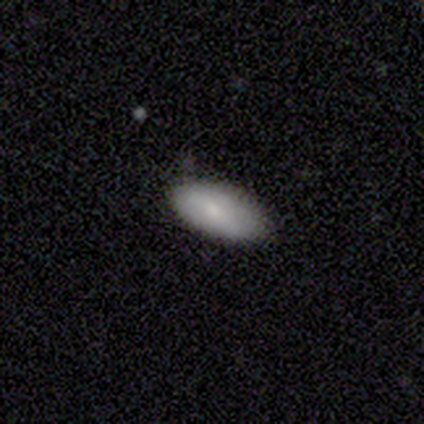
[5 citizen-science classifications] This is clearly a smooth galaxy (100%). How rounded: clearly in between (100%). Merging: clearly none (100%).